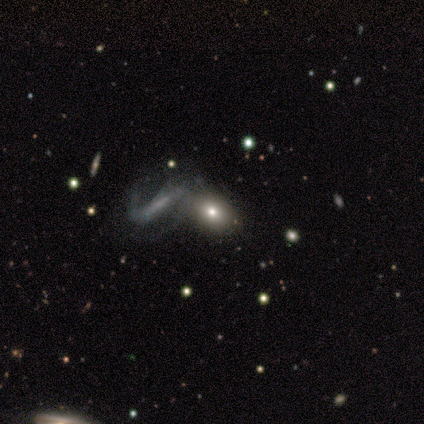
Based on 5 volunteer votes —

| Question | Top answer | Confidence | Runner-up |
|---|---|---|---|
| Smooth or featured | featured or disk | 60% | smooth (40%) |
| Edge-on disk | no | 100% | — |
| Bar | strong | 67% | no (33%) |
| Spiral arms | yes | 67% | no (33%) |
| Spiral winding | loose | 100% | — |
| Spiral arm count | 2 | 100% | — |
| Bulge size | none | 67% | moderate (33%) |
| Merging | none | 40% | tied: merger (40%) |